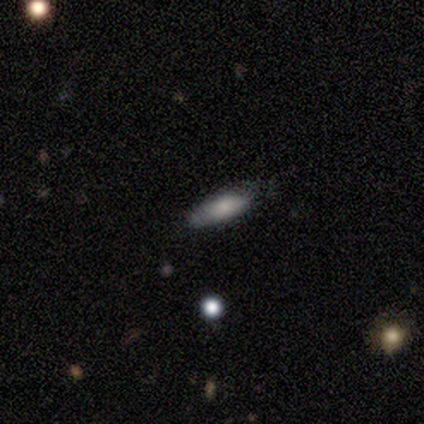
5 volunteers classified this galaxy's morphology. Q: Smooth or featured?
A: smooth (100%)
Q: How rounded?
A: in between (60%); runner-up: cigar-shaped (40%)
Q: Merging?
A: none (80%); runner-up: minor disturbance (20%)